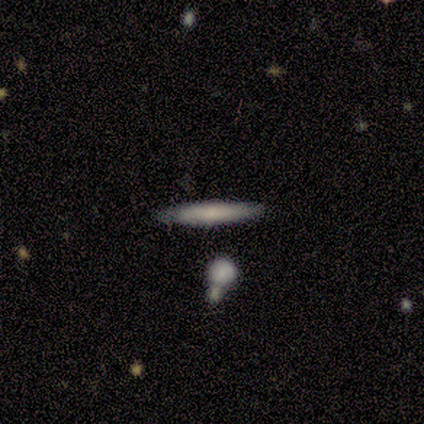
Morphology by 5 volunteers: smooth-or-featured: smooth: 60% | featured or disk: 40% | star or artifact: 0%
  how-rounded: cigar-shaped: 67% | round: 33% | in between: 0%
  merging: none: 60% | minor disturbance: 40% | major disturbance: 0% | merger: 0%